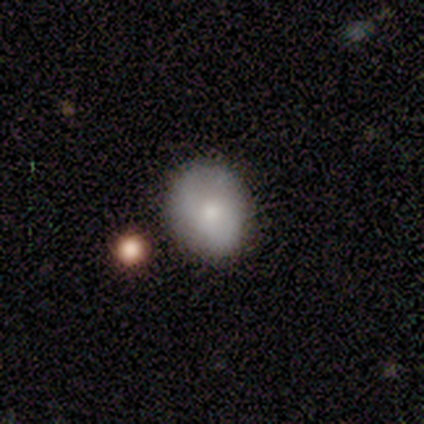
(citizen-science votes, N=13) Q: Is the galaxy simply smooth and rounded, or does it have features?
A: smooth — 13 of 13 (100%).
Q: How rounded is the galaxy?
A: round — 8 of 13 (62%).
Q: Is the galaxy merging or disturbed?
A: none — 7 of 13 (54%).